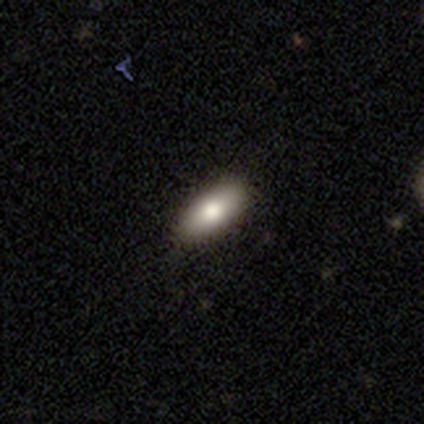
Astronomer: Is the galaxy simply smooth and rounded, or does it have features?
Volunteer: smooth — 100%.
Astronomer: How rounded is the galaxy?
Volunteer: in between — 75%.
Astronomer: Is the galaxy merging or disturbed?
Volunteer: none — 75%.